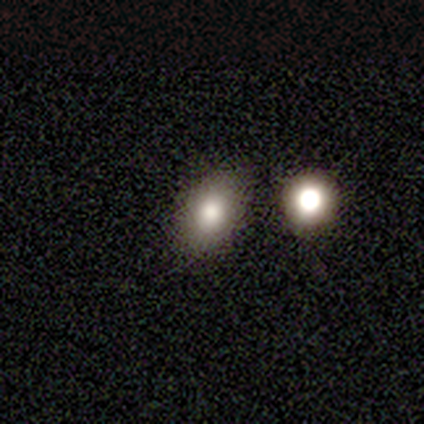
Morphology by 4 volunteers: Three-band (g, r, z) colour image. It shows a smooth galaxy with no disk features (75%) that is in between round and cigar-shaped (100%). Merging: none (100%).